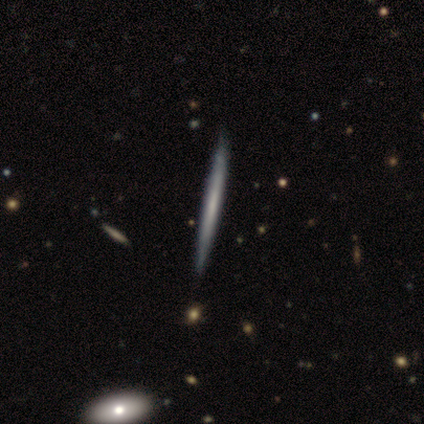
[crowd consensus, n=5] Overall: featured or disk (80%). Edge-on disk: yes (100%). Edge-on bulge: none (100%). Merging: none (60%; minor disturbance 40%).